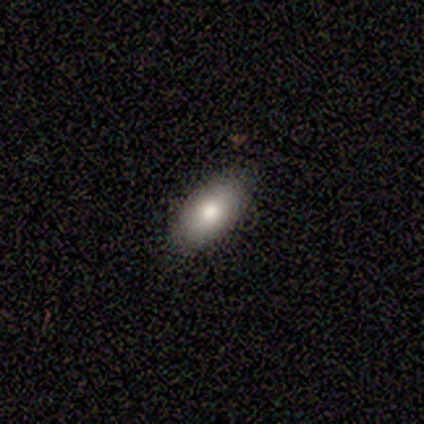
A smooth galaxy with no disk features (100%) that is in between round and cigar-shaped (100%).

Vote fractions:
- Smooth or featured? smooth: 100% / featured or disk: 0% / star or artifact: 0%
- How rounded? in between: 100% / round: 0% / cigar-shaped: 0%
- Merging? none: 100% / minor disturbance: 0% / major disturbance: 0% / merger: 0%